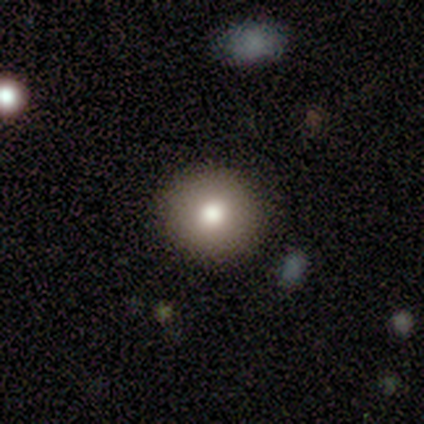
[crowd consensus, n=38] This appears to be a smooth galaxy with no disk features (82%) that is round (94%). Merging: none (91%).